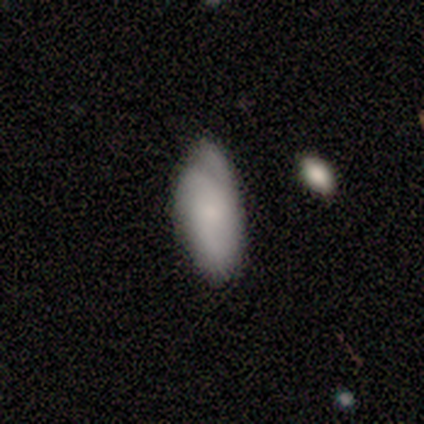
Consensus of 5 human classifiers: A smooth galaxy with no disk features (60%) that is in between round and cigar-shaped (100%).

Vote fractions:
- Smooth or featured? smooth: 60% / featured or disk: 40% / star or artifact: 0%
- How rounded? in between: 100% / round: 0% / cigar-shaped: 0%
- Merging? minor disturbance: 80% / none: 20% / major disturbance: 0% / merger: 0%